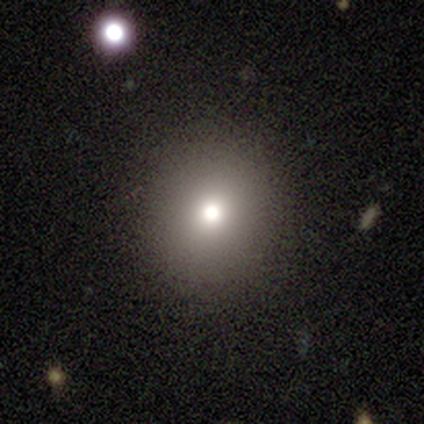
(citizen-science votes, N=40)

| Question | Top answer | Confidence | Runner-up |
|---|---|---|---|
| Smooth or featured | smooth | 62% | star or artifact (25%) |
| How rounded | round | 100% | — |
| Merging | none | 90% | minor disturbance (3%) |